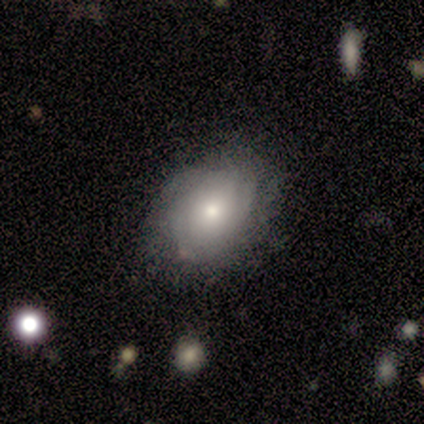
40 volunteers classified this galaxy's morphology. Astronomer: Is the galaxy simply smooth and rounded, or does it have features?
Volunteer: featured or disk — 65%.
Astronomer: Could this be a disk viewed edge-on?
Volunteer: no — 100%.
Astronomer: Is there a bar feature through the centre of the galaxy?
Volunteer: no — 88%.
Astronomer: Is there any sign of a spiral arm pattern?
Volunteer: yes — 77%.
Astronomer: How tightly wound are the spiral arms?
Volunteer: tight — 60%.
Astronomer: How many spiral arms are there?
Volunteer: can't tell — 50%.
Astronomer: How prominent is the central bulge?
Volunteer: moderate — 50% (runner-up: small, 38%).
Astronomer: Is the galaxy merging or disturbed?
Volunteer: none — 68%.